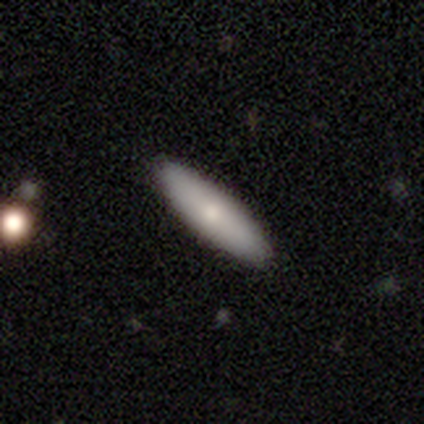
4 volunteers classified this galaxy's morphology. This is likely a smooth galaxy (75%). How rounded: likely cigar-shaped (67%). Merging: clearly none (100%).